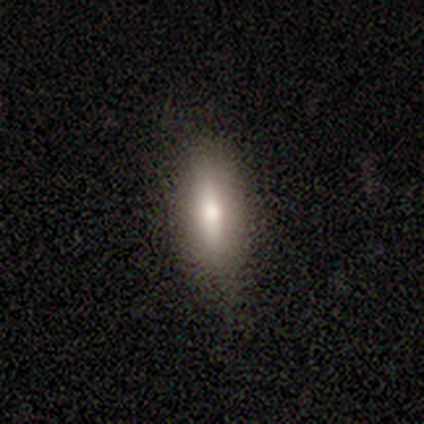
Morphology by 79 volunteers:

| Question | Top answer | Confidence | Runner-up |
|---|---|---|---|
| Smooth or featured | smooth | 67% | featured or disk (28%) |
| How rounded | in between | 55% | cigar-shaped (43%) |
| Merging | none | 40% | minor disturbance (12%) |